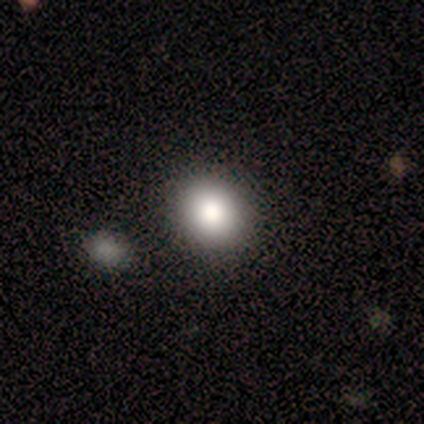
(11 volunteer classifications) smooth 91%, featured or disk 9%, star or artifact 0%. Down the decision tree: how rounded — round (90%); merging — none (91%).